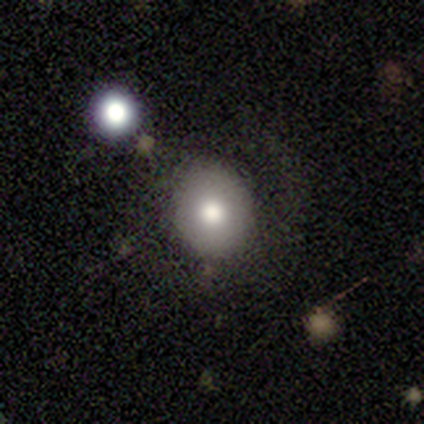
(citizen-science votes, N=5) This appears to be a smooth galaxy with no disk features (60%) that is round (100%). Merging: none (80%).